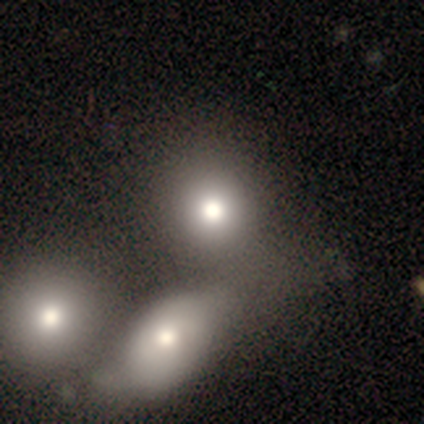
smooth 60%, star or artifact 40%, featured or disk 0%. Down the decision tree: how rounded — round (67%); merging — none (67%).